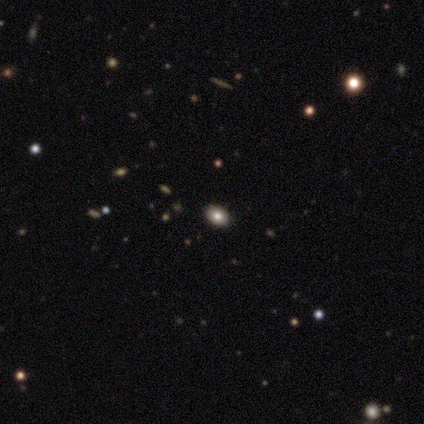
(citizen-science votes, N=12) A smooth galaxy with no disk features (67%) that is in between round and cigar-shaped (75%).

Vote fractions:
- Smooth or featured? smooth: 67% / star or artifact: 33% / featured or disk: 0%
- How rounded? in between: 75% / round: 25% / cigar-shaped: 0%
- Merging? none: 100% / minor disturbance: 0% / major disturbance: 0% / merger: 0%